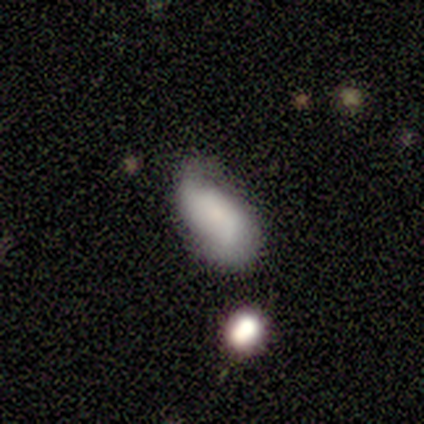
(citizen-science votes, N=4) Smooth or featured? 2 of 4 (50%, tied with featured or disk) said smooth. How rounded? 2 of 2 (100%) said in between. Merging? 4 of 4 (100%) said none.